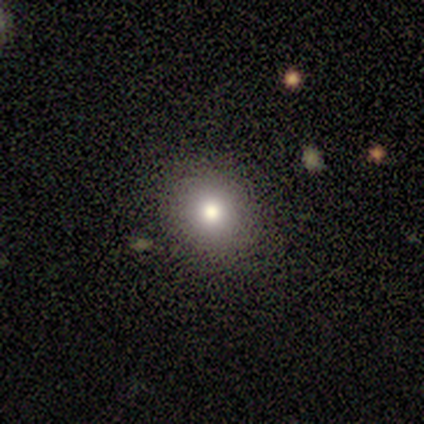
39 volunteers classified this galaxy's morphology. This appears to be a smooth galaxy with no disk features (79%) that is round (90%). Merging: none (91%).